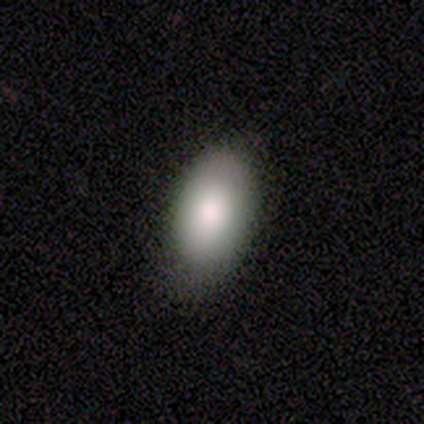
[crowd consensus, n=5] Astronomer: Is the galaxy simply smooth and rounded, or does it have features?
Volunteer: smooth — 60% (runner-up: featured or disk, 40%).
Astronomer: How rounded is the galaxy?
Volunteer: in between — 100%.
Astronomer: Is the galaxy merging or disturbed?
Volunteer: none — 100%.